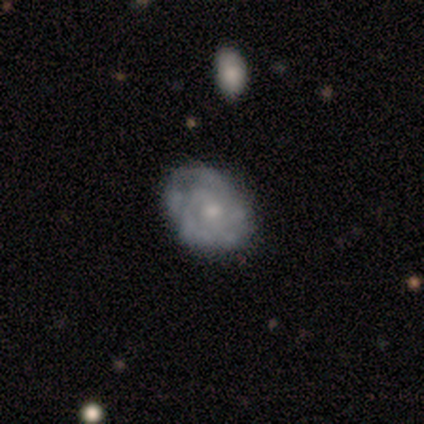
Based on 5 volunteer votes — Smooth or featured?
  - smooth: 60% *
  - featured or disk: 40%
  - star or artifact: 0%
How rounded?
  - in between: 100% *
  - round: 0%
  - cigar-shaped: 0%
Merging?
  - none: 40% * (tied)
  - minor disturbance: 40% * (tied)
  - major disturbance: 20%
  - merger: 0%